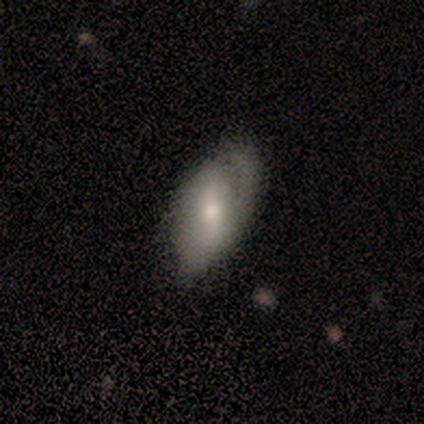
smooth-or-featured: smooth: 60% | featured or disk: 40% | star or artifact: 0%
  how-rounded: in between: 100% | round: 0% | cigar-shaped: 0%
  merging: none: 60% | minor disturbance: 40% | major disturbance: 0% | merger: 0%